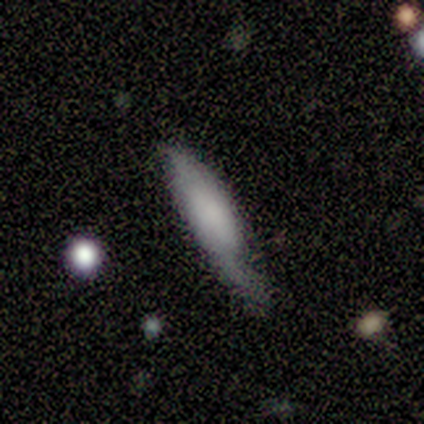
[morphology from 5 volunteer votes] Overall: smooth (80%). How rounded: cigar-shaped (75%). Merging: none (40%, tied with major disturbance).